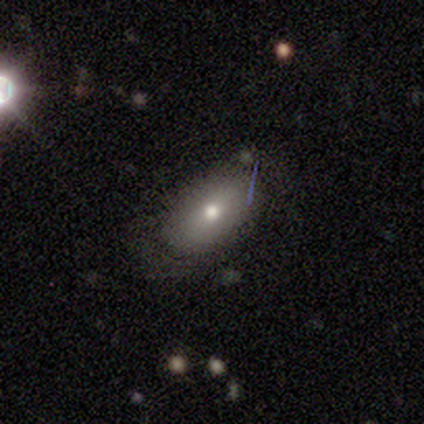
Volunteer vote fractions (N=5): This appears to be a smooth galaxy with no disk features (80%) that is in between round and cigar-shaped (100%). Merging: minor disturbance (75%).